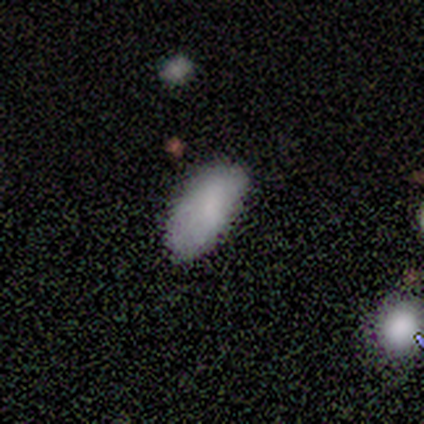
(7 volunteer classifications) Smooth or featured? 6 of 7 (86%) said smooth. How rounded? 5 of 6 (83%) said in between. Merging? 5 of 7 (71%) said none.